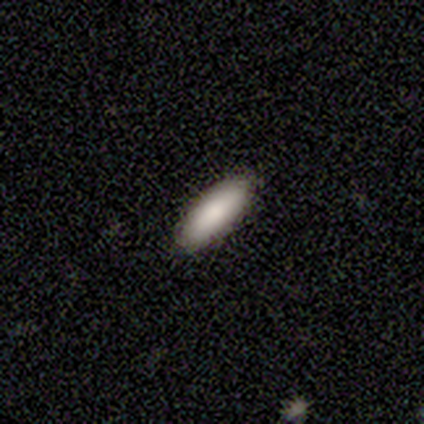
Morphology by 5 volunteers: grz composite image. It shows a smooth galaxy with no disk features (80%) that is cigar-shaped (75%). Merging: none (100%).